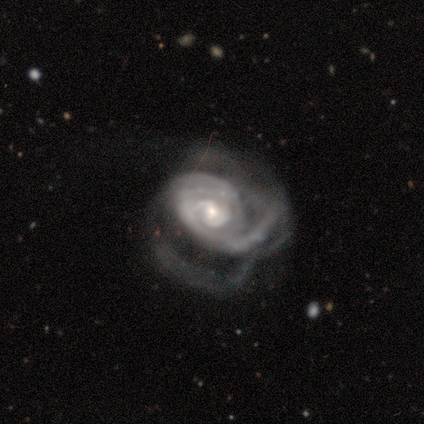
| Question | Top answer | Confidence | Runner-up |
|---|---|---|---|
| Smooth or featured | featured or disk | 100% | — |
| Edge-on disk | no | 100% | — |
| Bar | no | 80% | weak (20%) |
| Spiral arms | yes | 100% | — |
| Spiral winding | tight | 80% | medium (20%) |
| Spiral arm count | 1 | 20% | tied: 2 (20%), 4 (20%), more than 4 (20%), can't tell (20%) |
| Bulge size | small | 80% | moderate (20%) |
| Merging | major disturbance | 100% | — |